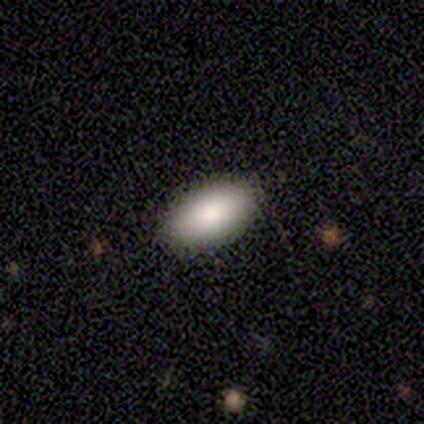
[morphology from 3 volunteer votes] smooth-or-featured: featured or disk: 67% | smooth: 33% | star or artifact: 0%
  disk-edge-on: no: 100% | yes: 0%
    bar: no: 100% | strong: 0% | weak: 0%
    has-spiral-arms: no: 100% | yes: 0%
    bulge-size: large: 50% (tied) | moderate: 50% (tied) | dominant: 0% | small: 0% | none: 0%
  merging: none: 100% | minor disturbance: 0% | major disturbance: 0% | merger: 0%